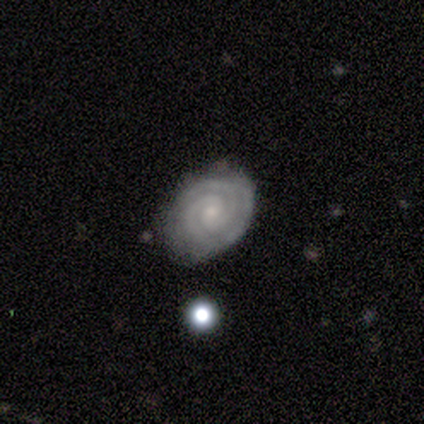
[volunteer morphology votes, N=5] type=featured or disk (80%); edge-on=no (100%); bar=no (75%); spiral arms=yes (100%); winding=tight (75%); arm count=2 (75%); bulge=small (100%); merging=none (80%).